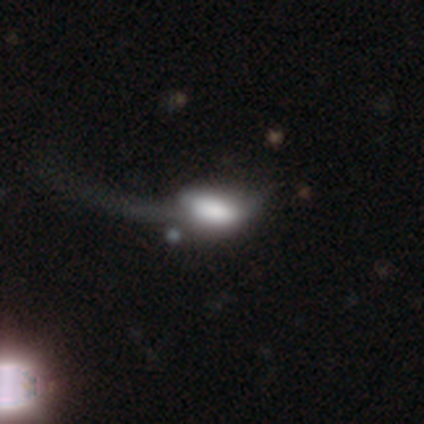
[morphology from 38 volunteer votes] Smooth or featured? 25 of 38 (66%) said smooth. How rounded? 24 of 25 (96%) said in between. Merging? 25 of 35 (71%) said major disturbance.